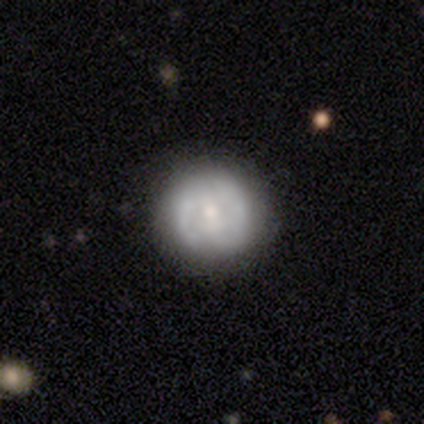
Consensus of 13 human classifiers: smooth_or_featured: smooth (p=0.46) [tied with: featured or disk p=0.46]
how_rounded: round (p=1.00)
merging: none (p=0.92) [alt: minor disturbance p=0.08]